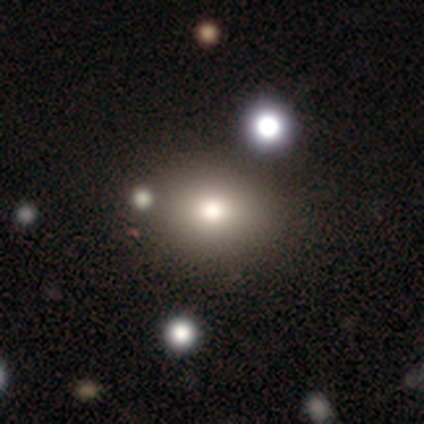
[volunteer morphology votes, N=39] Volunteers were most divided on "how rounded": round: 52%, in between: 48%, cigar-shaped: 0%. More confident: merging — none (88%); smooth or featured — smooth (69%).